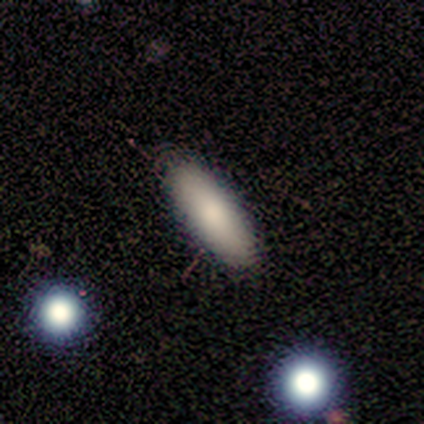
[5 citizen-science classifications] A smooth galaxy with no disk features (80%) that is in between round and cigar-shaped (100%).

Vote fractions:
- Smooth or featured? smooth: 80% / featured or disk: 20% / star or artifact: 0%
- How rounded? in between: 100% / round: 0% / cigar-shaped: 0%
- Merging? none: 100% / minor disturbance: 0% / major disturbance: 0% / merger: 0%